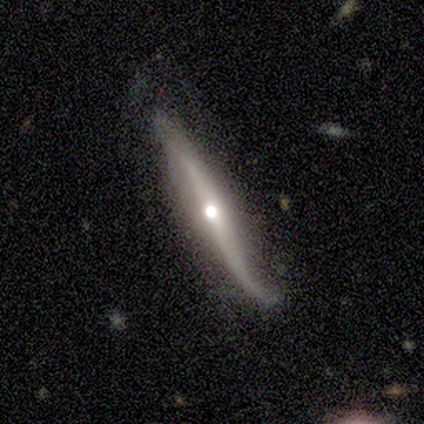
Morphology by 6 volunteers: Smooth or featured?
  - featured or disk: 83% *
  - smooth: 17%
  - star or artifact: 0%
Edge-on disk?
  - yes: 60% *
  - no: 40%
Edge-on bulge?
  - rounded: 100% *
  - boxy: 0%
  - none: 0%
Merging?
  - none: 33% * (tied)
  - minor disturbance: 33% * (tied)
  - major disturbance: 17%
  - merger: 17%